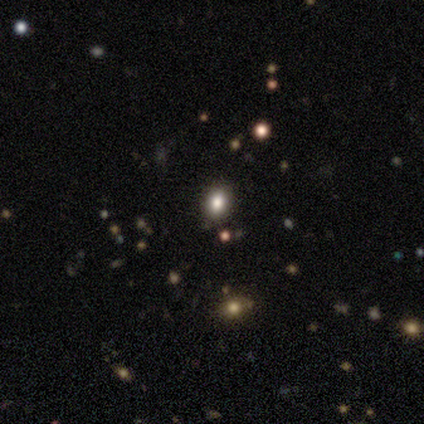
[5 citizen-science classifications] Smooth or featured? 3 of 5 (60%) said smooth. How rounded? 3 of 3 (100%) said in between. Merging? 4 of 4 (100%) said none.